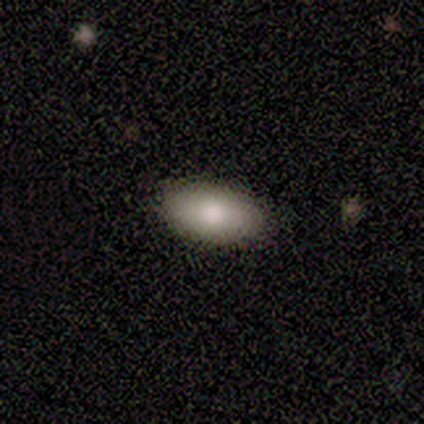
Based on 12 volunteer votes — Volunteers were most divided on "smooth or featured": smooth: 83%, featured or disk: 8%, star or artifact: 8%. More confident: how rounded — in between (100%); merging — none (91%).